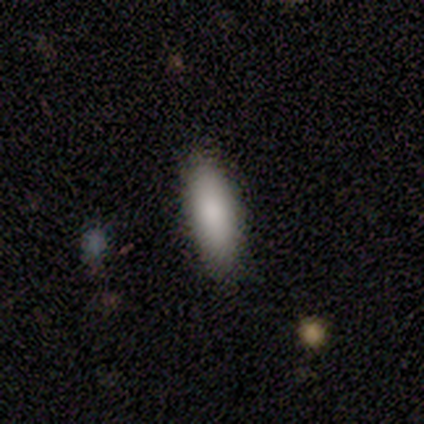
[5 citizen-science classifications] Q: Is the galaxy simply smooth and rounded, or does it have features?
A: smooth — 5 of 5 (100%).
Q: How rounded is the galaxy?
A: in between — 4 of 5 (80%).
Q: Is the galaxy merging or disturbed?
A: none — 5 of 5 (100%).